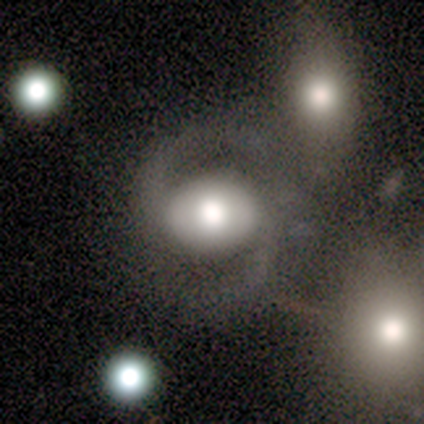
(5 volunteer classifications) Smooth or featured? 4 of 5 (80%) said featured or disk. Edge-on disk? 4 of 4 (100%) said no. Bar? 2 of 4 (50%) said no. Spiral arms? 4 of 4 (100%) said yes. Spiral winding? 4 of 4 (100%) said medium. Spiral arm count? 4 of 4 (100%) said 2. Bulge size? 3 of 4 (75%) said large. Merging? 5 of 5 (100%) said none.